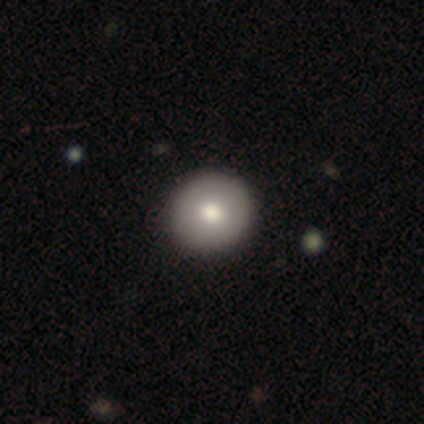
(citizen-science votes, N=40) Smooth or featured?
  - smooth: 85% *
  - featured or disk: 12%
  - star or artifact: 2%
How rounded?
  - round: 94% *
  - in between: 6%
  - cigar-shaped: 0%
Merging?
  - none: 69% *
  - minor disturbance: 3%
  - merger: 3%
  - major disturbance: 0%